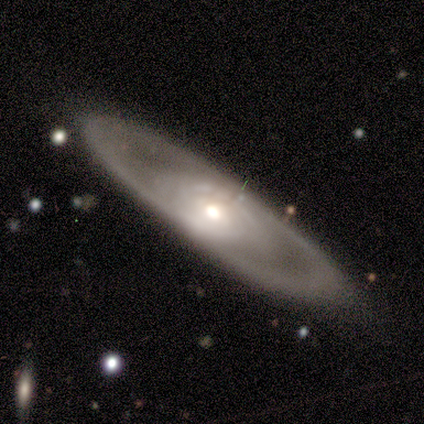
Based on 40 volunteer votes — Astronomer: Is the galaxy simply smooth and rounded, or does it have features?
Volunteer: featured or disk — 82%.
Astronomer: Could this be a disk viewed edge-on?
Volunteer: no — 70%.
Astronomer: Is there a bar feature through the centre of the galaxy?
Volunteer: no — 61%.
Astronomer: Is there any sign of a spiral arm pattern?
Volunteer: yes — 65%.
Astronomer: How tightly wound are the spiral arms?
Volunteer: tight — 60%.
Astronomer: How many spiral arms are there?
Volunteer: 2 — 47%, tied with can't tell at 47%.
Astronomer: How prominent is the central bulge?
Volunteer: moderate — 43%, tied with small at 43%.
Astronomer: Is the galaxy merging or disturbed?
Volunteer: none — 78%.